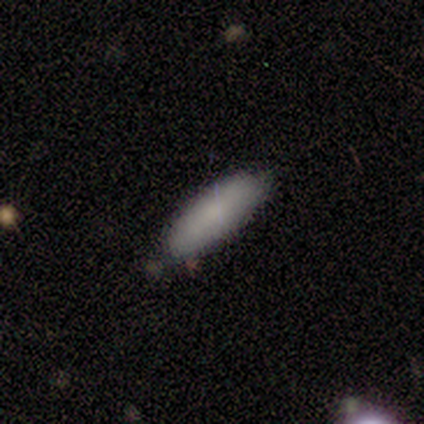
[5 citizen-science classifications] Smooth or featured?
  - smooth: 80% *
  - featured or disk: 20%
  - star or artifact: 0%
How rounded?
  - in between: 50% * (tied)
  - cigar-shaped: 50% * (tied)
  - round: 0%
Merging?
  - none: 80% *
  - merger: 20%
  - minor disturbance: 0%
  - major disturbance: 0%